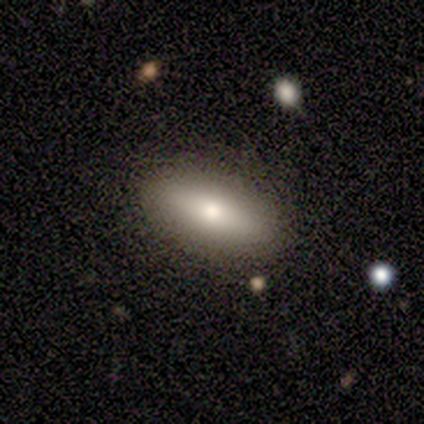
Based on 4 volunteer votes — smooth_or_featured: smooth (p=0.50) [tied with: featured or disk p=0.50]
how_rounded: in between (p=0.50) [tied with: cigar-shaped p=0.50]
merging: none (p=0.75) [alt: minor disturbance p=0.25]